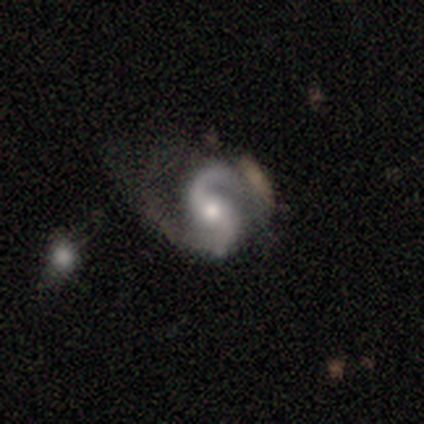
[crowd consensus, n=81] Overall: featured or disk (94%). Edge-on disk: no (96%). Bar: no (51%; weak 36%). Spiral arms: yes (100%). Spiral arm count: 2 (100%). Spiral winding: medium (52%; loose 30%). Bulge size: moderate (66%; small 30%). Merging: none (43%; minor disturbance 31%).